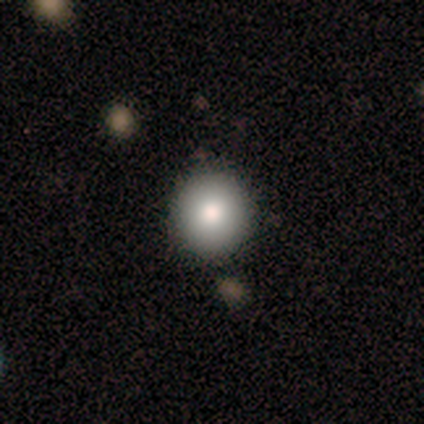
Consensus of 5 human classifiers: Smooth or featured? smooth (80%)
How rounded? round (100%)
Merging? none (60%)